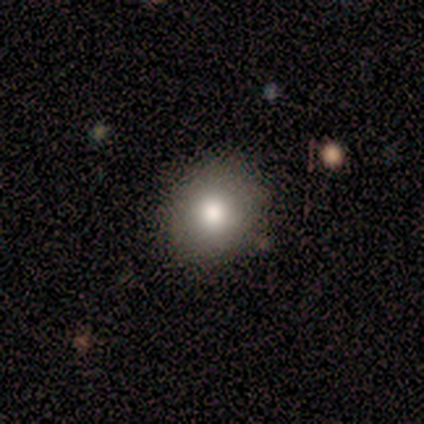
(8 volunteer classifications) Smooth or featured: smooth — 75% (featured or disk — 25%)
How rounded: round — 67% (in between — 33%)
Merging: none — 100%